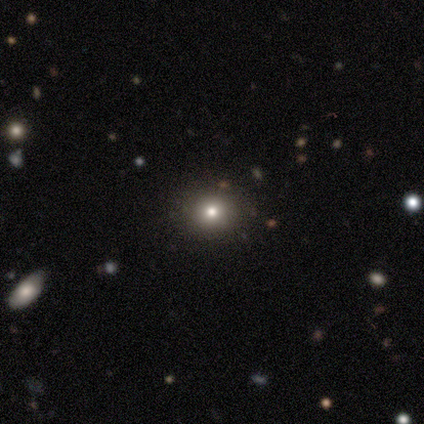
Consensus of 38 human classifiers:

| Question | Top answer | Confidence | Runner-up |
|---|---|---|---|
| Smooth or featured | smooth | 61% | star or artifact (32%) |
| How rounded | round | 96% | in between (4%) |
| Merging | none | 88% | minor disturbance (4%) |